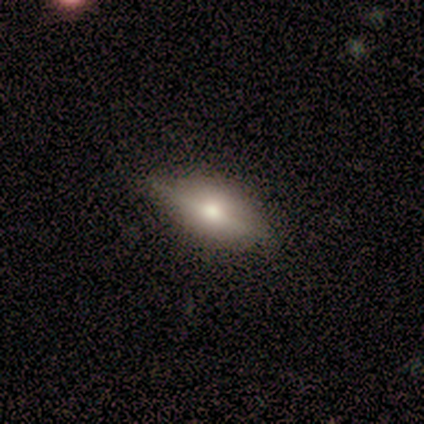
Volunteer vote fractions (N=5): This is marginally a smooth galaxy (40%, tied with star or artifact). How rounded: clearly in between (100%). Merging: clearly none (100%).